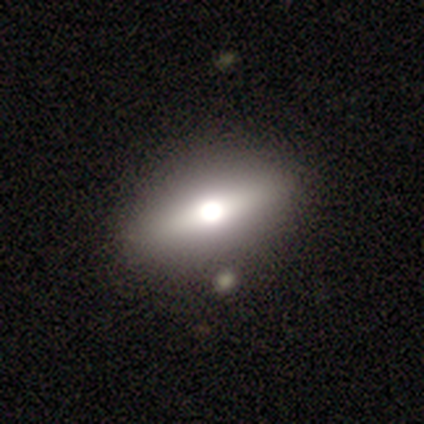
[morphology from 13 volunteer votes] Smooth or featured: featured or disk — 38% (smooth — 31%)
Edge-on disk: yes — 80% (no — 20%)
Edge-on bulge: rounded — 100%
Merging: none — 78% (merger — 22%)